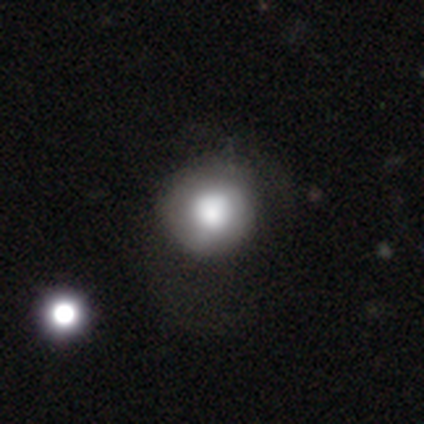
A smooth galaxy with no disk features (64%) that is round (100%).

Vote fractions:
- Smooth or featured? smooth: 64% / featured or disk: 21% / star or artifact: 14%
- How rounded? round: 100% / in between: 0% / cigar-shaped: 0%
- Merging? none: 58% / minor disturbance: 42% / major disturbance: 0% / merger: 0%